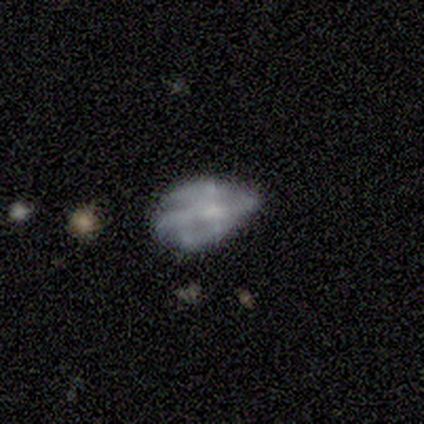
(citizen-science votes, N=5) Overall: smooth (40%, tied with featured or disk). How rounded: in between (100%). Merging: minor disturbance (100%).